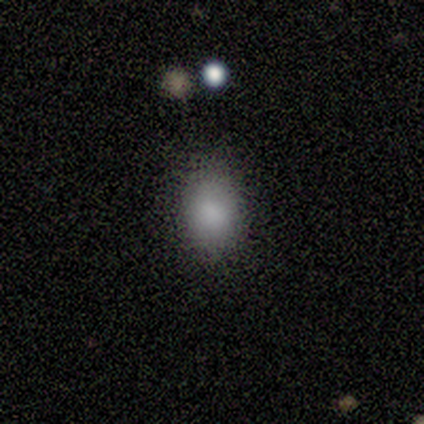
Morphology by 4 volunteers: Smooth or featured? smooth (100%)
How rounded? in between (75%)
Merging? none (50%, tied with minor disturbance)